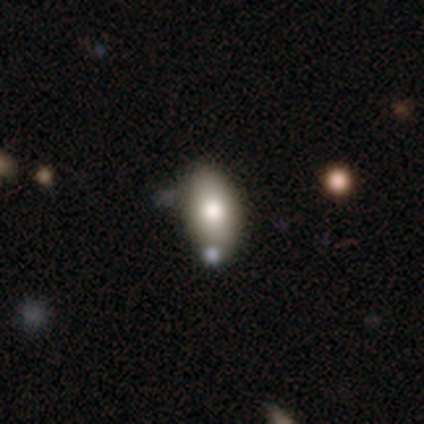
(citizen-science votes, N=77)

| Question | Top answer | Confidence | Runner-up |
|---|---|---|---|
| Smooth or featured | smooth | 81% | featured or disk (16%) |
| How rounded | in between | 92% | round (5%) |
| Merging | none | 35% | merger (19%) |